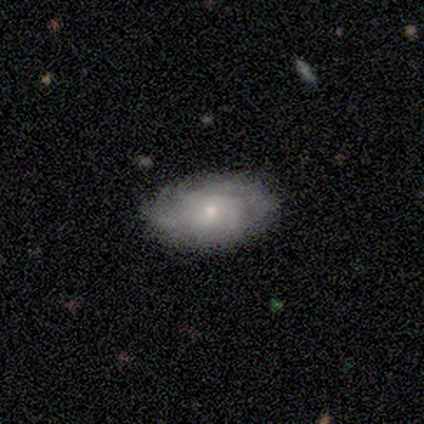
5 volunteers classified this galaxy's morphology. A featured or disk galaxy (100%) with no bar (100%), 3 (40%, tied with can't tell) tight (40%, tied with medium) spiral arms (100%) and a moderate central bulge (80%).

Vote fractions:
- Smooth or featured? featured or disk: 100% / smooth: 0% / star or artifact: 0%
- Edge-on disk? no: 100% / yes: 0%
- Bar? no: 100% / strong: 0% / weak: 0%
- Spiral arms? yes: 100% / no: 0%
- Spiral winding? tight: 40% (tied) / medium: 40% (tied) / loose: 20%
- Spiral arm count? 3: 40% (tied) / can't tell: 40% (tied) / 2: 20% / 1: 0% / 4: 0% / more than 4: 0%
- Bulge size? moderate: 80% / small: 20% / dominant: 0% / large: 0% / none: 0%
- Merging? none: 80% / minor disturbance: 20% / major disturbance: 0% / merger: 0%